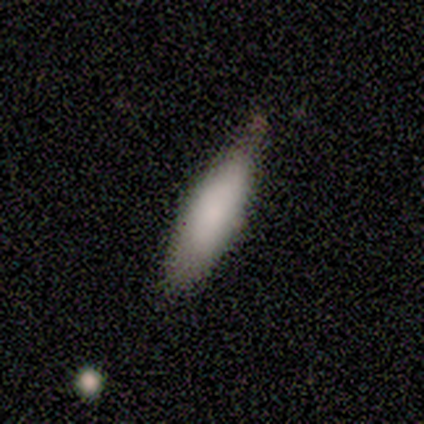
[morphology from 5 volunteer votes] smooth 80%, star or artifact 20%, featured or disk 0%. Down the decision tree: how rounded — in between (100%); merging — none (75%).